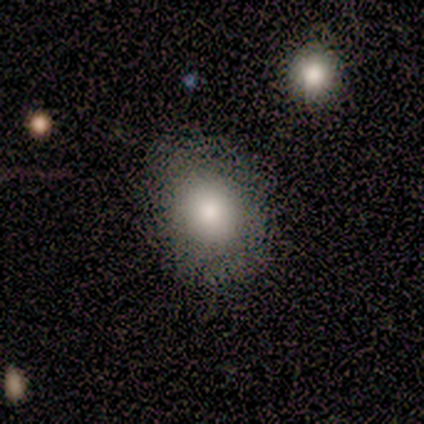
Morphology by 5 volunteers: Volunteers were most divided on "how rounded": in between: 60%, round: 40%, cigar-shaped: 0%. More confident: smooth or featured — smooth (100%); merging — none (60%).